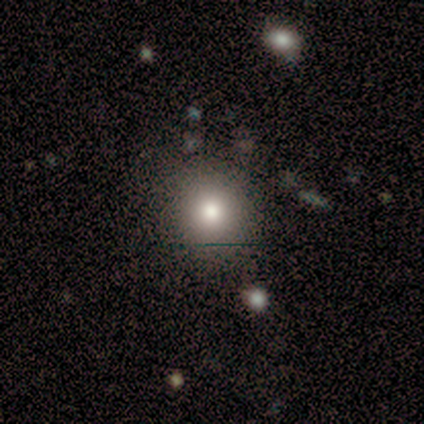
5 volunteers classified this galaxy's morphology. Volunteers were most divided on "smooth or featured" (2-way tie): smooth: 40%, star or artifact: 40%, featured or disk: 20%. More confident: how rounded — round (100%); merging — none (67%).